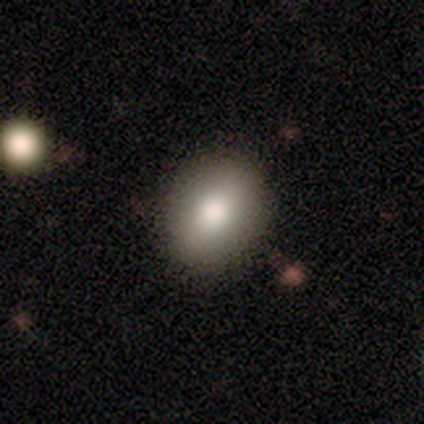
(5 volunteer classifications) smooth-or-featured: smooth: 80% | featured or disk: 20% | star or artifact: 0%
  how-rounded: in between: 75% | round: 25% | cigar-shaped: 0%
  merging: none: 100% | minor disturbance: 0% | major disturbance: 0% | merger: 0%